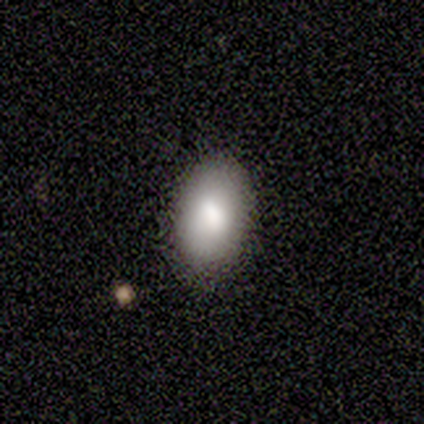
smooth 75%, star or artifact 25%, featured or disk 0%. Down the decision tree: how rounded — in between (100%); merging — none (67%).